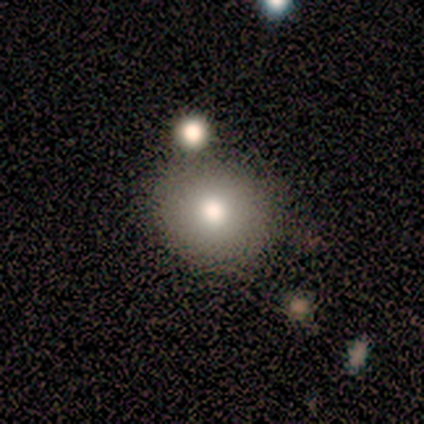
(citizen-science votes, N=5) This is clearly a smooth galaxy (100%). How rounded: clearly round (100%). Merging: clearly none (100%).